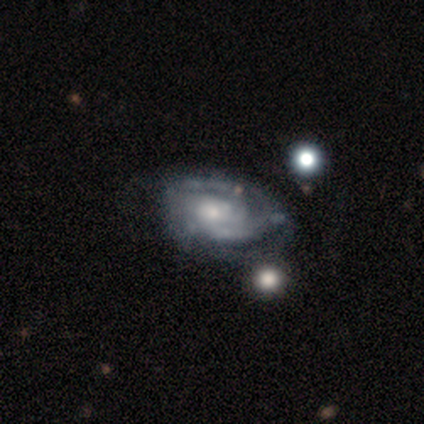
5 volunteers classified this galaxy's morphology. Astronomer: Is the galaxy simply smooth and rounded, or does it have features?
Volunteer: featured or disk — 60% (runner-up: smooth, 40%).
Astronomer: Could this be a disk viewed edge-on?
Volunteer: no — 100%.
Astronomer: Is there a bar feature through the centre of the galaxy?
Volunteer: no — 67%.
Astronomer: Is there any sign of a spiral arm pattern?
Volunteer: yes — 100%.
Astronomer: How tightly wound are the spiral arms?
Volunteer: medium — 100%.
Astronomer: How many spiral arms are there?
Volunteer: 2 — 100%.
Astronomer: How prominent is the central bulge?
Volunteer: moderate — 67%.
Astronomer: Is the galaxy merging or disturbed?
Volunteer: major disturbance — 60%.